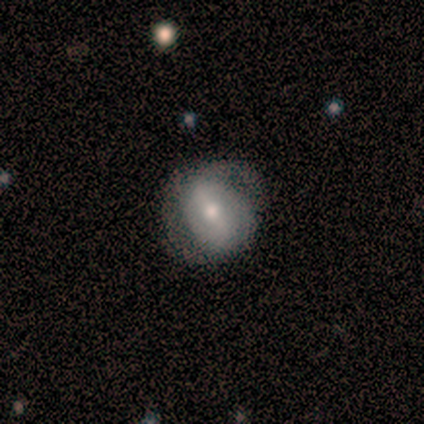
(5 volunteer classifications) Smooth or featured: smooth — 80% (featured or disk — 20%)
How rounded: round — 100%
Merging: minor disturbance — 60% (none — 40%)